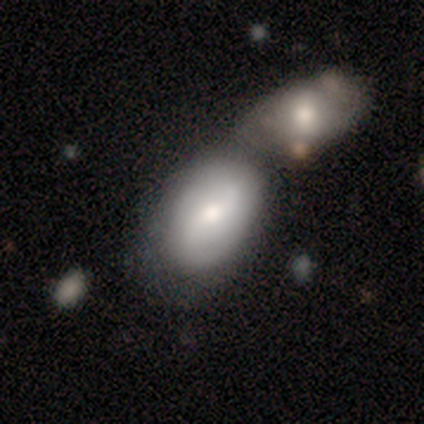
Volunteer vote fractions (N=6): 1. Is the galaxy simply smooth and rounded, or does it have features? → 67% featured or disk, 33% smooth, 0% star or artifact.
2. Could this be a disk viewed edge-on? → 100% no, 0% yes.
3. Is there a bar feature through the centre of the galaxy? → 50% no, 25% strong, 25% weak.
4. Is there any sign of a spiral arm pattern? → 75% no, 25% yes.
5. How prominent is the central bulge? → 100% moderate, 0% dominant, 0% large, 0% small, 0% none.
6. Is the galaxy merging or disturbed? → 50% merger, 33% none, 17% minor disturbance, 0% major disturbance.